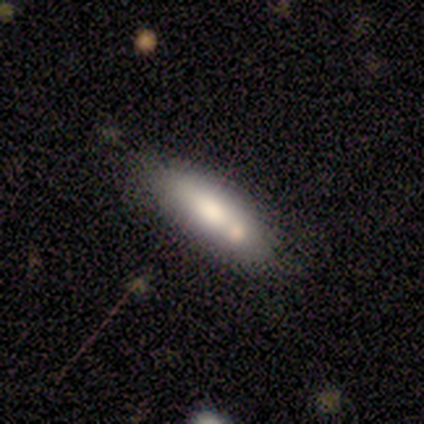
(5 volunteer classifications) Smooth or featured? smooth (80%)
How rounded? in between (75%)
Merging? none (60%)